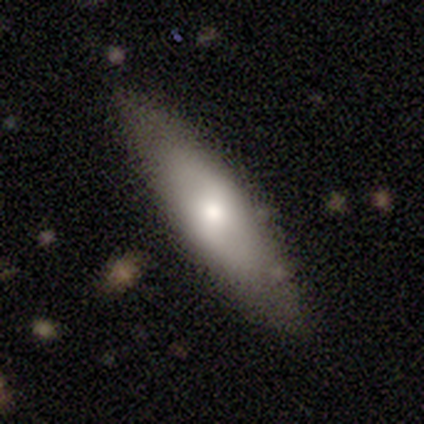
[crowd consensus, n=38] This is likely a smooth galaxy (61%). How rounded: possibly cigar-shaped (57%). Merging: likely none (72%).